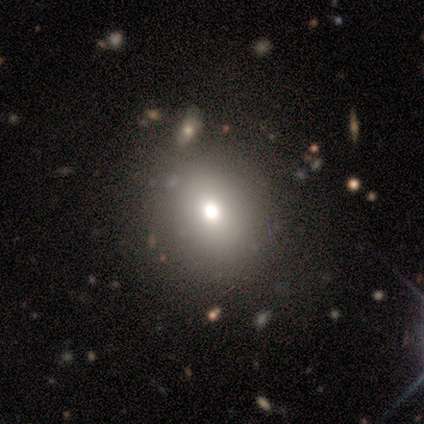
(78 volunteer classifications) This is likely a smooth galaxy (77%). How rounded: likely round (62%). Merging: marginally none (31%).